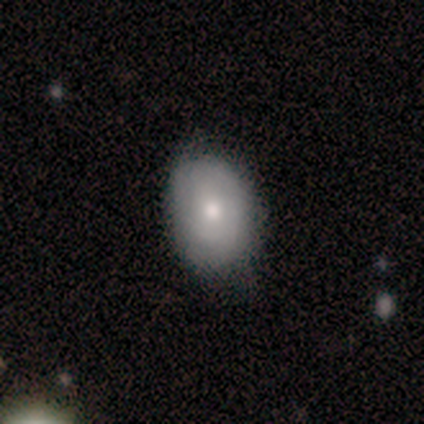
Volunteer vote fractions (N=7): smooth_or_featured: smooth (p=0.86) [alt: featured or disk p=0.14]
how_rounded: in between (p=0.67) [alt: round p=0.33]
merging: none (p=0.86) [alt: minor disturbance p=0.14]